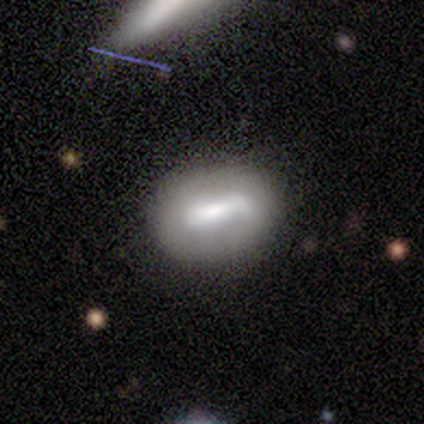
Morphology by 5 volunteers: smooth_or_featured: featured or disk (p=0.80) [alt: smooth p=0.20]
disk_edge_on: no (p=0.75) [alt: yes p=0.25]
bar: strong (p=1.00)
has_spiral_arms: no (p=0.67) [alt: yes p=0.33]
bulge_size: large (p=0.33) [tied with: moderate p=0.33, none p=0.33]
merging: none (p=0.60) [alt: minor disturbance p=0.20]